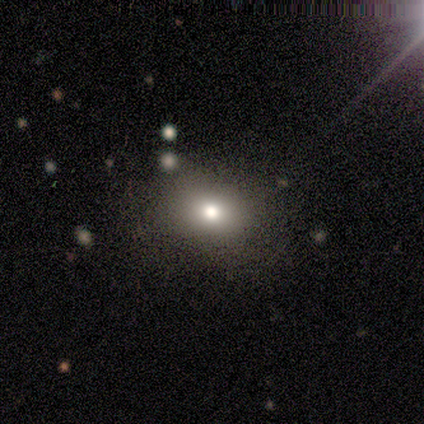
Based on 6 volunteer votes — Smooth or featured? smooth (67%)
How rounded? round (50%, tied with in between)
Merging? none (100%)